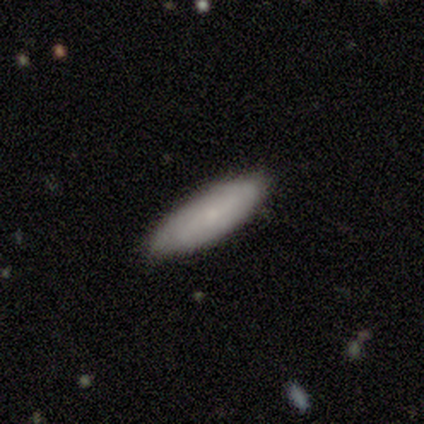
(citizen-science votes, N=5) This is clearly a smooth galaxy (80%). How rounded: possibly in between (50%, tied with cigar-shaped). Merging: clearly none (80%).